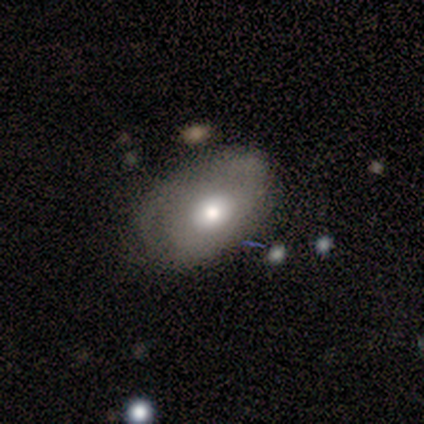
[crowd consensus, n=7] Volunteers were most divided on "merging" (2-way tie): minor disturbance: 40%, major disturbance: 40%, none: 20%, merger: 0%. Remaining: how rounded — in between (100%); smooth or featured — smooth (43%).